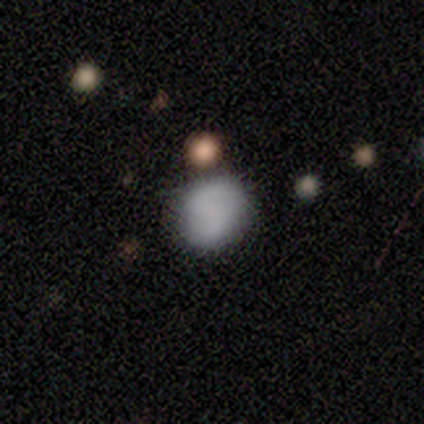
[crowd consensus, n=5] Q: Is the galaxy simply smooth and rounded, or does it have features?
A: smooth — 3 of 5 (60%).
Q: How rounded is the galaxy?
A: in between — 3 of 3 (100%).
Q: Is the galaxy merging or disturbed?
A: minor disturbance — 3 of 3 (100%).